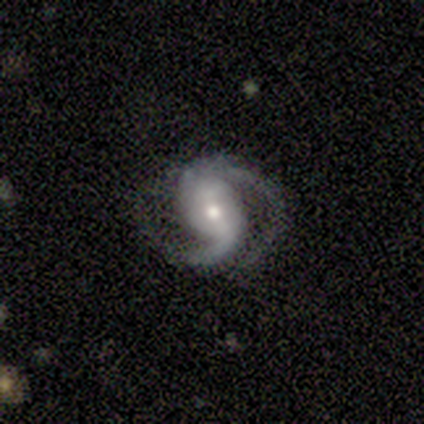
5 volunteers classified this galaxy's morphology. Smooth or featured? featured or disk (100%)
Edge-on disk? no (100%)
Bar? strong (60%)
Spiral arms? yes (100%)
Spiral winding? medium (80%)
Spiral arm count? 2 (80%)
Bulge size? small (80%)
Merging? none (80%)